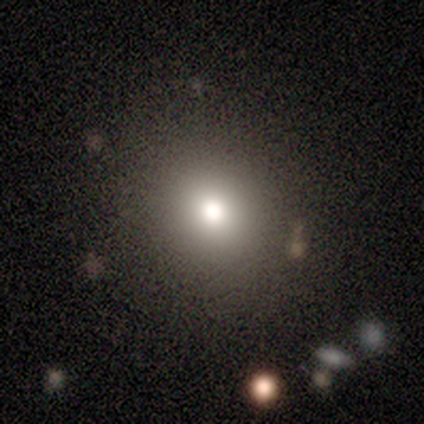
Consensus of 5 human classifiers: smooth 60%, star or artifact 40%, featured or disk 0%. Down the decision tree: how rounded — round (100%); merging — none (100%).